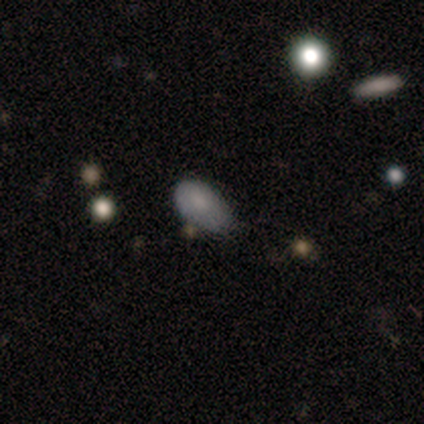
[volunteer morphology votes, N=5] A smooth galaxy with no disk features (80%) that is in between round and cigar-shaped (100%). Merging: minor disturbance (100%).